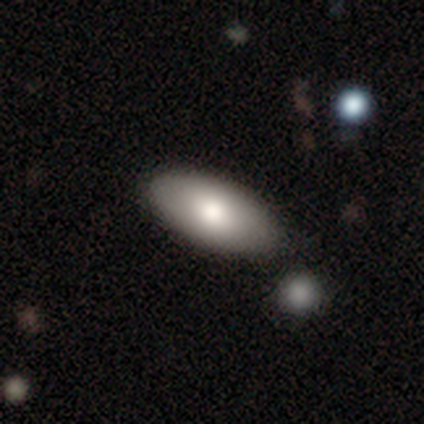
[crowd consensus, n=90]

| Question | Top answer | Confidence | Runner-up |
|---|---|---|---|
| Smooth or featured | smooth | 77% | featured or disk (18%) |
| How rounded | in between | 99% | cigar-shaped (1%) |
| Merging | none | 82% | minor disturbance (14%) |